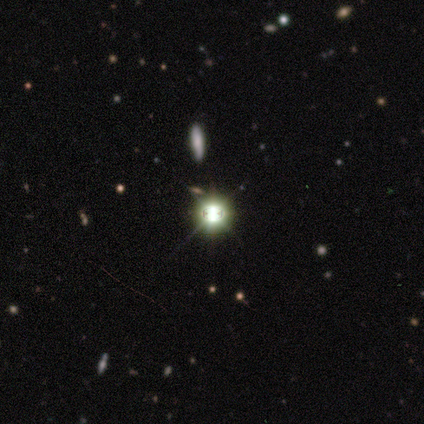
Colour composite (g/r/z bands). It shows a star or artifact, not a galaxy (80%).